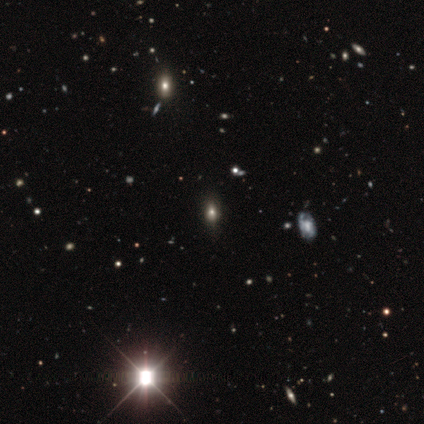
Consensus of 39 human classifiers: smooth 49%, star or artifact 38%, featured or disk 13%. Down the decision tree: how rounded — in between (79%); merging — none (46%).